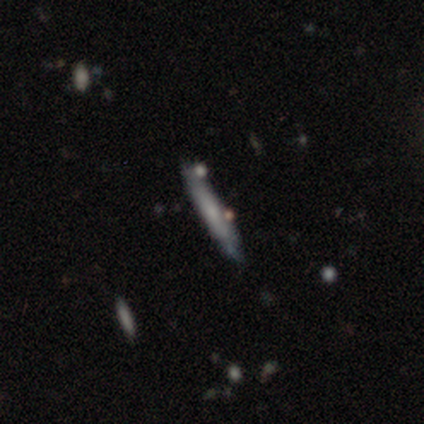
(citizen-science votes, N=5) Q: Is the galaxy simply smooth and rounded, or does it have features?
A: smooth — 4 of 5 (80%).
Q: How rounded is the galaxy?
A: cigar-shaped — 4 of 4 (100%).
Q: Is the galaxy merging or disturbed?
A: none — 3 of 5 (60%).